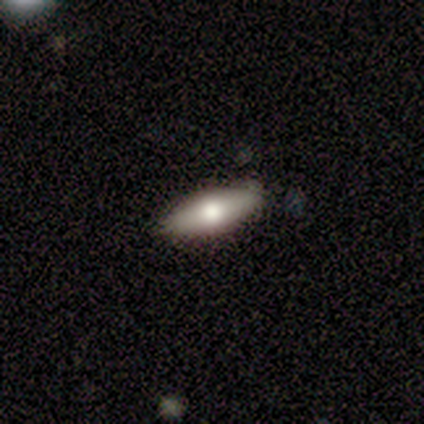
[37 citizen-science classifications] This is possibly a smooth galaxy (57%). How rounded: likely in between (76%). Merging: clearly none (81%).